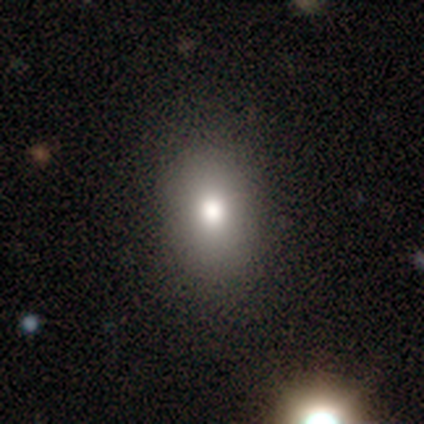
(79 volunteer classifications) smooth_or_featured: smooth (p=0.87) [alt: star or artifact p=0.08]
how_rounded: in between (p=0.71) [alt: round p=0.29]
merging: none (p=0.41) [alt: minor disturbance p=0.05]